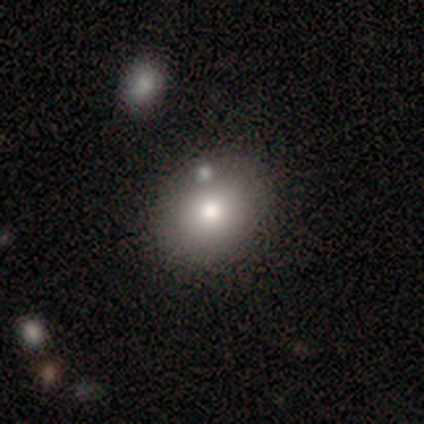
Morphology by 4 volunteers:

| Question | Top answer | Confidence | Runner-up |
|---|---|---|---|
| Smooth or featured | smooth | 50% | tied: star or artifact (50%) |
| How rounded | in between | 100% | — |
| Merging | none | 50% | tied: merger (50%) |